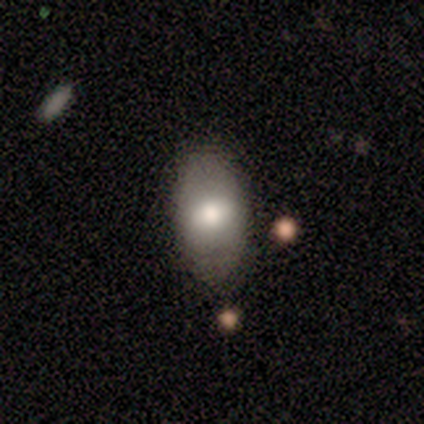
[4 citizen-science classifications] smooth 100%, featured or disk 0%, star or artifact 0%. Down the decision tree: how rounded — in between (100%); merging — none (100%).